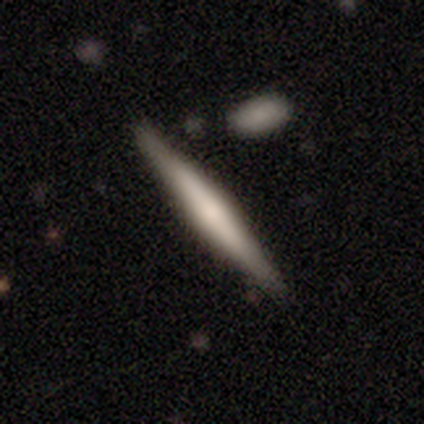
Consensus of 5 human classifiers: Q: Smooth or featured?
A: smooth (60%); runner-up: featured or disk (40%)
Q: How rounded?
A: cigar-shaped (100%)
Q: Merging?
A: none (100%)